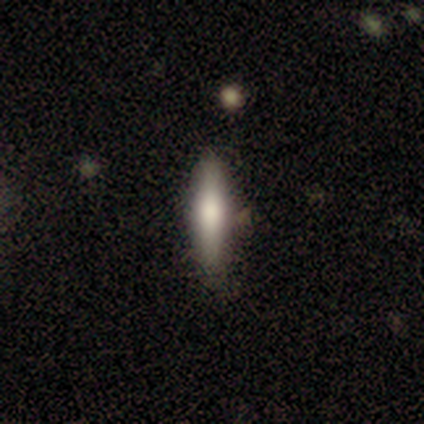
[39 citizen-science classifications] smooth-or-featured: smooth: 59% | featured or disk: 38% | star or artifact: 3%
  how-rounded: cigar-shaped: 83% | in between: 17% | round: 0%
  merging: none: 89% | merger: 8% | minor disturbance: 3% | major disturbance: 0%